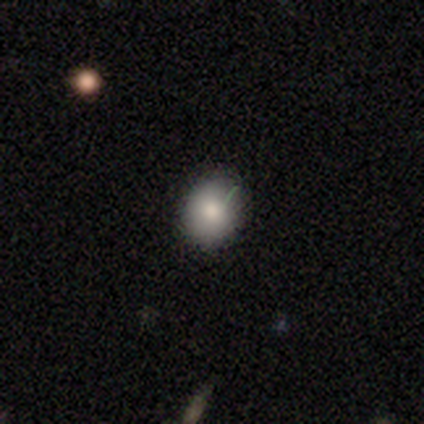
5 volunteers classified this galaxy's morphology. Smooth or featured? smooth (60%)
How rounded? round (67%)
Merging? none (50%, tied with minor disturbance)